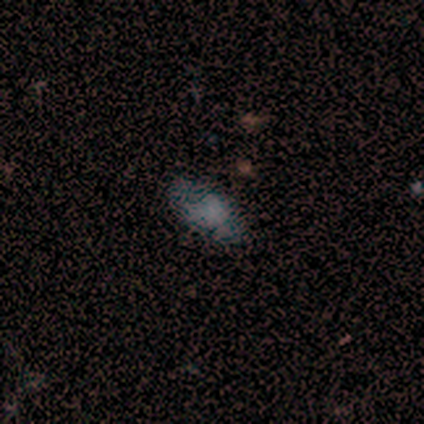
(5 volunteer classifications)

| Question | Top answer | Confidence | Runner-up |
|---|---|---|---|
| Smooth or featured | smooth | 60% | featured or disk (40%) |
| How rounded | in between | 100% | — |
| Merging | none | 80% | minor disturbance (20%) |